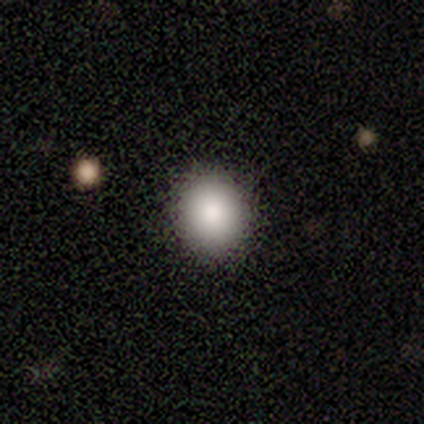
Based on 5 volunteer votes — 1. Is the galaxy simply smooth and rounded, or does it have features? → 60% smooth, 20% featured or disk, 20% star or artifact.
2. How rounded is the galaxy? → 100% round, 0% in between, 0% cigar-shaped.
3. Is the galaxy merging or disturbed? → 100% none, 0% minor disturbance, 0% major disturbance, 0% merger.